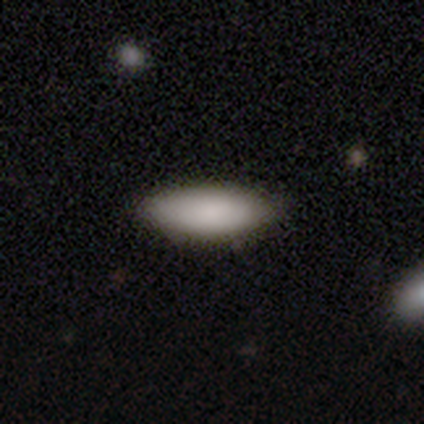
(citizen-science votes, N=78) Overall: smooth (85%). How rounded: in between (82%). Merging: none (48%; minor disturbance 8%).